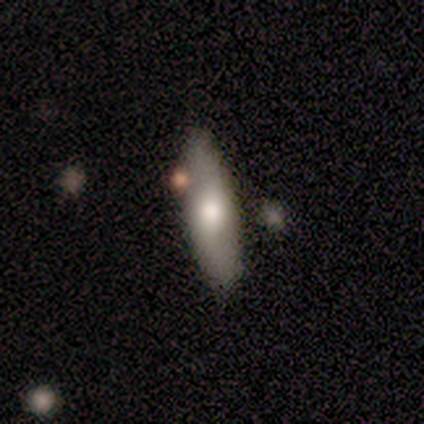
A smooth galaxy with no disk features (75%) that is cigar-shaped (67%). Merging: none (50%).